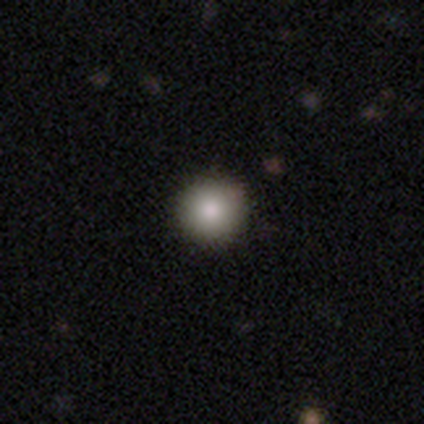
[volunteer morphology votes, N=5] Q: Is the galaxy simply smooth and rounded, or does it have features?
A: smooth — 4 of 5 (80%).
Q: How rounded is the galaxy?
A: round — 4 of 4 (100%).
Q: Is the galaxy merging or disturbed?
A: none — 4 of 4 (100%).